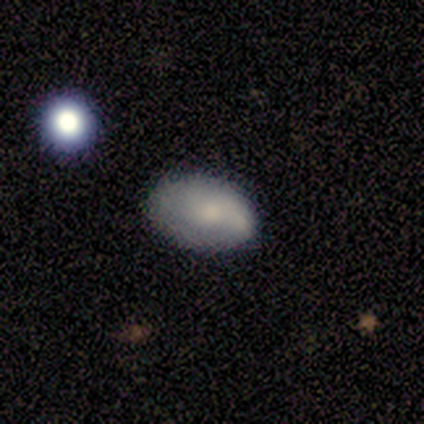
Volunteers were most divided on "spiral arms" (2-way tie): yes: 50%, no: 50%. More confident: bar — no (100%); spiral winding — medium (100%); spiral arm count — 2 (100%); bulge size — moderate (100%); merging — none (80%); edge-on disk — no (67%); smooth or featured — featured or disk (60%).